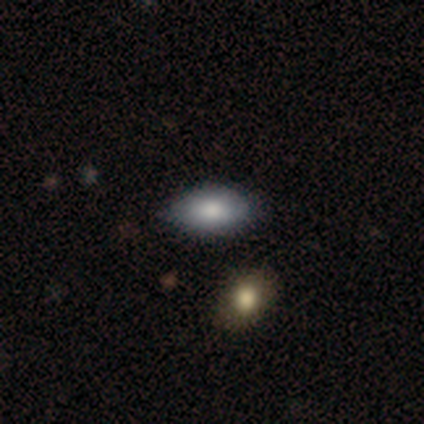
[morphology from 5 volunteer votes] Q: Smooth or featured?
A: smooth (80%); runner-up: featured or disk (20%)
Q: How rounded?
A: in between (100%)
Q: Merging?
A: none (100%)